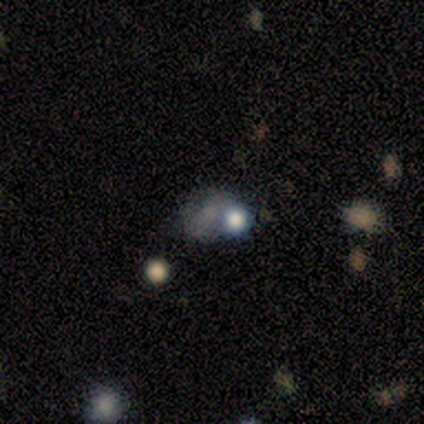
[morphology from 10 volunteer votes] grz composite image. It shows a star or artifact, not a galaxy (50%).